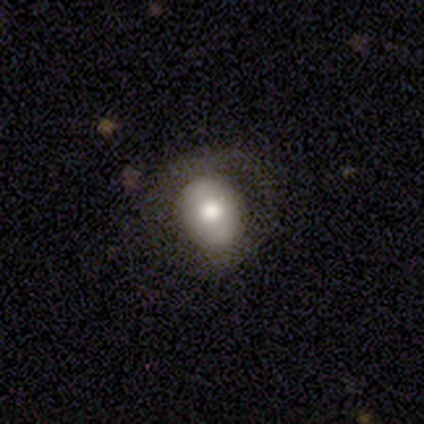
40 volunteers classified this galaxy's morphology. This is likely a smooth galaxy (60%). How rounded: likely round (71%). Merging: likely none (73%).